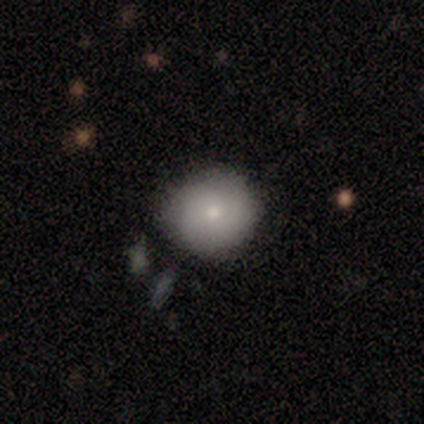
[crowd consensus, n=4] Overall: smooth (75%). How rounded: round (100%). Merging: none (75%).